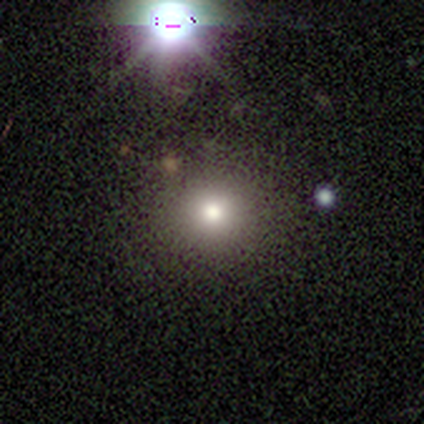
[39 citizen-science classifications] smooth 85%, star or artifact 10%, featured or disk 5%. Down the decision tree: how rounded — round (82%); merging — none (63%).